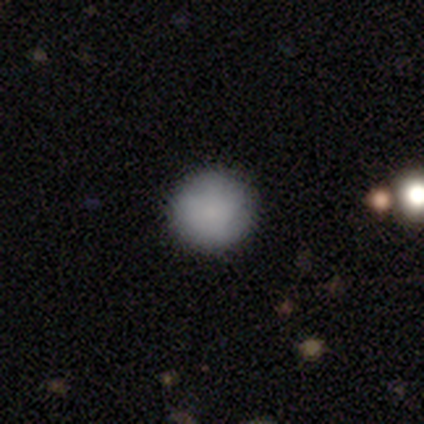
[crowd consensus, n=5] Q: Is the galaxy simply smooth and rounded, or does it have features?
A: smooth — 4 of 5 (80%).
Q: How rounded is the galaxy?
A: round — 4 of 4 (100%).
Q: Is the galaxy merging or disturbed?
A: none — 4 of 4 (100%).